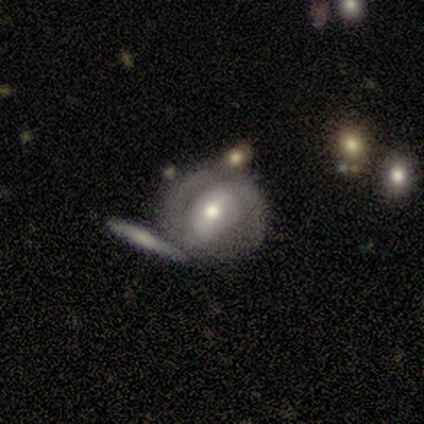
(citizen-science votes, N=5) Smooth or featured: featured or disk — 80% (smooth — 20%)
Edge-on disk: no — 100%
Bar: weak — 75% (strong — 25%)
Spiral arms: yes — 75% (no — 25%)
Spiral winding: medium — 67% (loose — 33%)
Spiral arm count: 2 — 67% (can't tell — 33%)
Bulge size: moderate — 50% (tied with small — 50%)
Merging: none — 60% (merger — 40%)